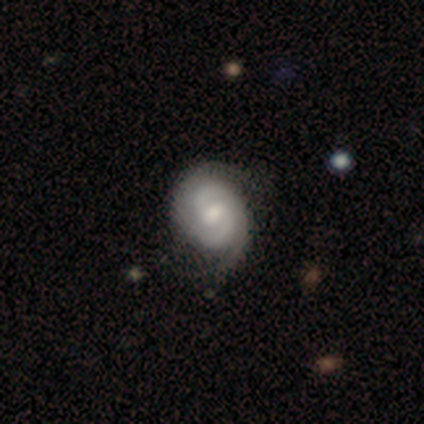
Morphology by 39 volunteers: This is clearly a featured or disk galaxy (90%). It is clearly not viewed edge-on (97%). Bar: possibly weak (56%). Spiral arm pattern: clearly yes (100%). Spiral arm count: clearly 2 (85%). Spiral winding: marginally tight (44%). Central bulge: possibly moderate (59%). Merging: possibly none (51%).